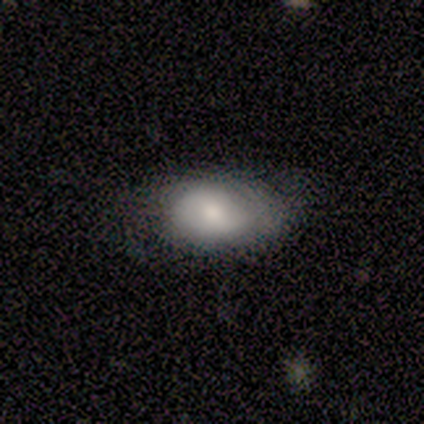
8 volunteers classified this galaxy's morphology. Smooth or featured? smooth (88%)
How rounded? in between (86%)
Merging? none (75%)